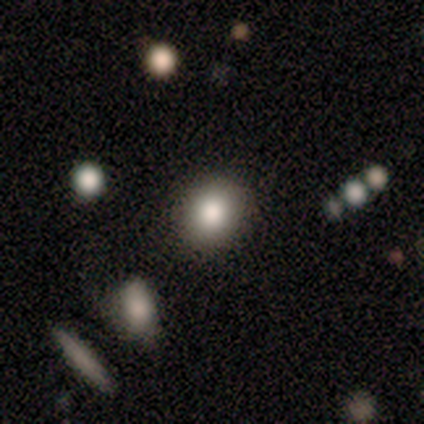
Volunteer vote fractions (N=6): Volunteers were most divided on "merging": none: 83%, merger: 17%, minor disturbance: 0%, major disturbance: 0%. More confident: smooth or featured — smooth (100%); how rounded — round (100%).